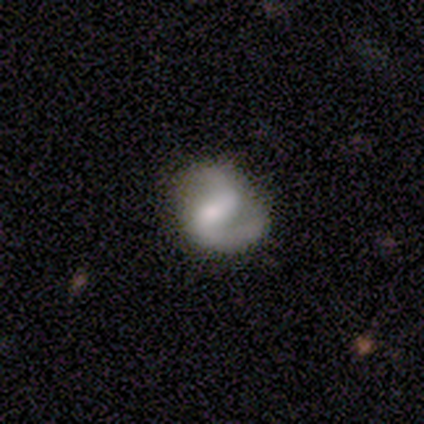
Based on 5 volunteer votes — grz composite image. It shows a featured or disk galaxy (80%) with a weak bar (75%), 2 (100%) medium (67%) spiral arms (75%) and a moderate central bulge (50%, tied with small). Merging: none (60%).